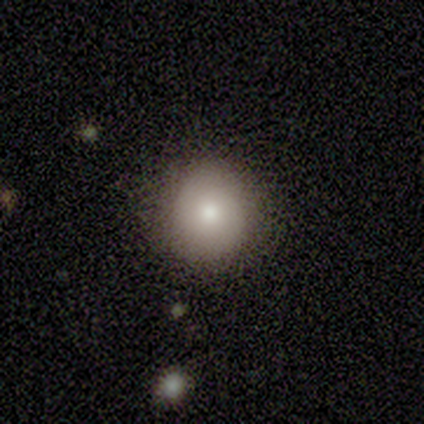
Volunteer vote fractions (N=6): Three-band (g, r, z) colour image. It shows a smooth galaxy with no disk features (67%) that is round (100%). Merging: none (100%).